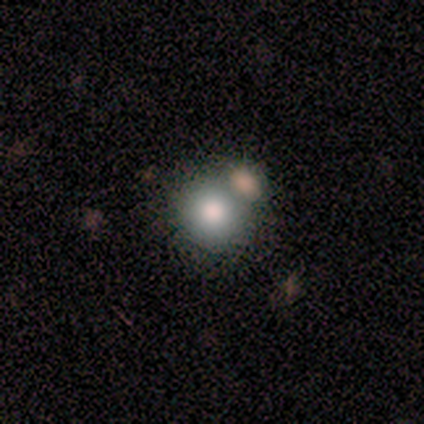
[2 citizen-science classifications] smooth_or_featured: smooth (p=0.50) [tied with: featured or disk p=0.50]
how_rounded: round (p=1.00)
merging: none (p=0.50) [tied with: merger p=0.50]